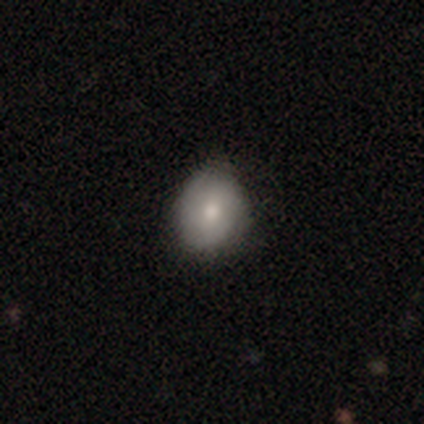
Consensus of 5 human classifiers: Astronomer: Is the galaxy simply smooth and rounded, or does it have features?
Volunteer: smooth — 100%.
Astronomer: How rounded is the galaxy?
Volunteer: round — 60% (runner-up: in between, 40%).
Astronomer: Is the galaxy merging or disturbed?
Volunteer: none — 80%.